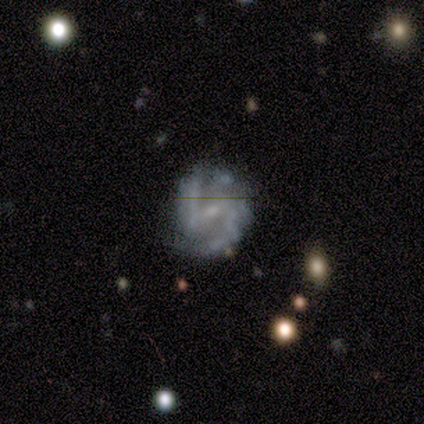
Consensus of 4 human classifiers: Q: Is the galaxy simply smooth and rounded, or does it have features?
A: featured or disk — 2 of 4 (50%).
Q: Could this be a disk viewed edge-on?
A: no — 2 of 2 (100%).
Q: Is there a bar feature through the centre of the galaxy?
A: weak — 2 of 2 (100%).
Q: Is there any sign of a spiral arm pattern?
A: yes — 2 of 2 (100%).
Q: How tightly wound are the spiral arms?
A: tight — 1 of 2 (50%, tied with medium).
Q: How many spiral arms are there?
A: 2 — 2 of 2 (100%).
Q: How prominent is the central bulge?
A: small — 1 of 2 (50%, tied with none).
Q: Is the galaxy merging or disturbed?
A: minor disturbance — 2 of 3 (67%).